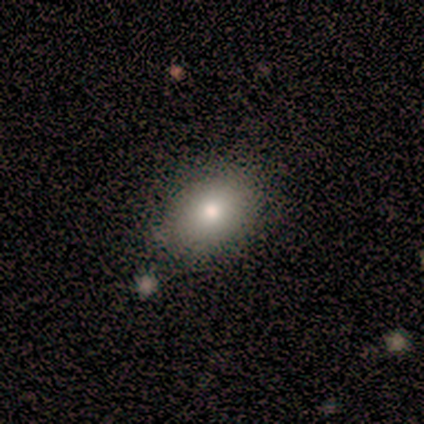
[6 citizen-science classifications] A smooth galaxy with no disk features (100%) that is in between round and cigar-shaped (83%).

Vote fractions:
- Smooth or featured? smooth: 100% / featured or disk: 0% / star or artifact: 0%
- How rounded? in between: 83% / round: 17% / cigar-shaped: 0%
- Merging? none: 67% / minor disturbance: 33% / major disturbance: 0% / merger: 0%